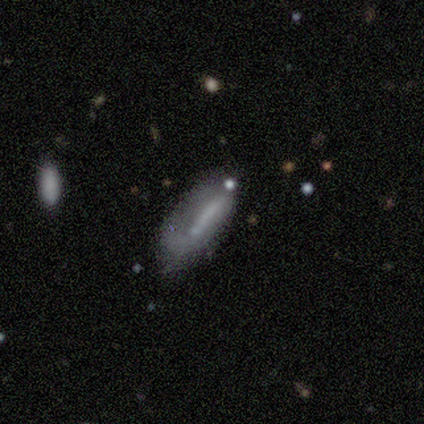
A smooth galaxy with no disk features (51%) that is cigar-shaped (61%).

Vote fractions:
- Smooth or featured? smooth: 51% / featured or disk: 43% / star or artifact: 6%
- How rounded? cigar-shaped: 61% / in between: 39% / round: 0%
- Merging? minor disturbance: 48% / none: 33% / major disturbance: 18% / merger: 0%